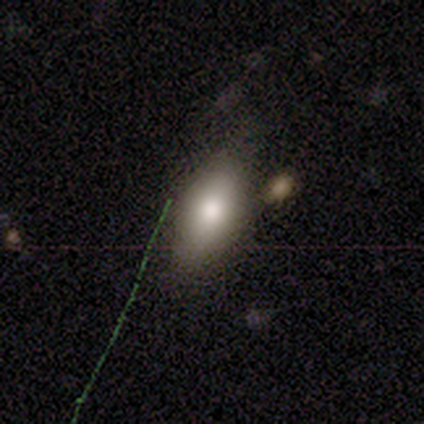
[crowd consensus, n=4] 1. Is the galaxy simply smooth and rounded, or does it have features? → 75% smooth, 25% star or artifact, 0% featured or disk.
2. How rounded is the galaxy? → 100% in between, 0% round, 0% cigar-shaped.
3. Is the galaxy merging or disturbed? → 100% none, 0% minor disturbance, 0% major disturbance, 0% merger.